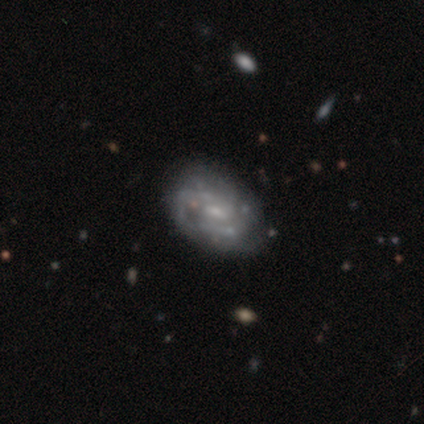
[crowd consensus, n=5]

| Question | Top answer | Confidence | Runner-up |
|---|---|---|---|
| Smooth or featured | featured or disk | 60% | smooth (20%) |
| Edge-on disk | no | 100% | — |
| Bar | weak | 100% | — |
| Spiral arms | yes | 100% | — |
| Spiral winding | tight | 67% | loose (33%) |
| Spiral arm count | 2 | 33% | tied: 3 (33%), 4 (33%) |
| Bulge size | moderate | 67% | small (33%) |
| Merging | none | 50% | minor disturbance (25%) |